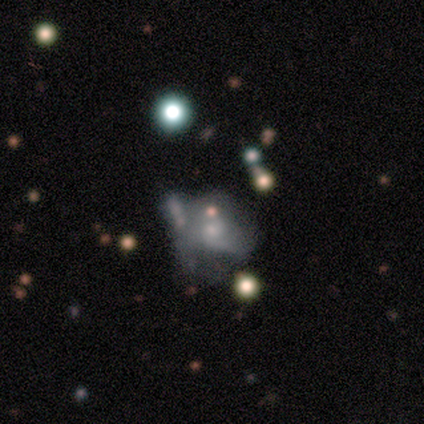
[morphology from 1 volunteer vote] Q: Smooth or featured?
A: smooth (100%)
Q: How rounded?
A: in between (100%)
Q: Merging?
A: major disturbance (100%)